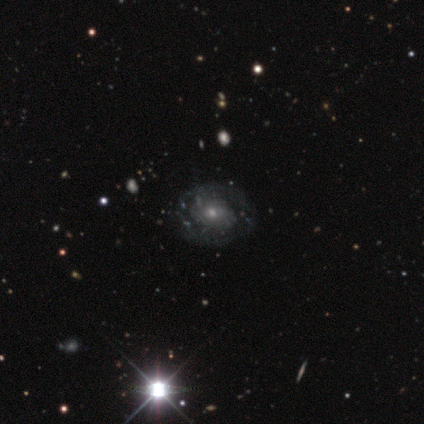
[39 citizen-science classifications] A featured or disk galaxy (67%) with no bar (68%), 2 (59%) medium (47%) spiral arms (68%) and a small central bulge (92%).

Vote fractions:
- Smooth or featured? featured or disk: 67% / star or artifact: 18% / smooth: 15%
- Edge-on disk? no: 96% / yes: 4%
- Bar? no: 68% / weak: 28% / strong: 4%
- Spiral arms? yes: 68% / no: 32%
- Spiral winding? medium: 47% / tight: 35% / loose: 18%
- Spiral arm count? 2: 59% / can't tell: 29% / 3: 6% / 4: 6% / 1: 0% / more than 4: 0%
- Bulge size? small: 92% / moderate: 8% / dominant: 0% / large: 0% / none: 0%
- Merging? none: 78% / major disturbance: 12% / minor disturbance: 9% / merger: 0%